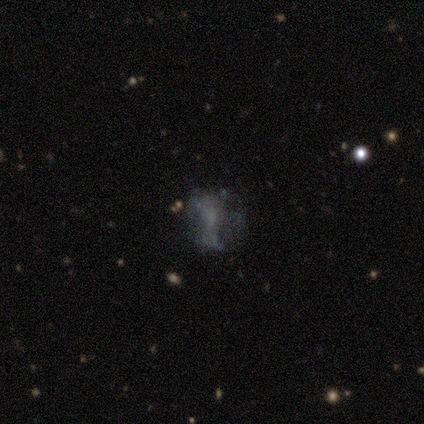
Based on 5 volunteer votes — Smooth or featured? 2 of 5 (40%, tied with star or artifact) said smooth. How rounded? 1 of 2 (50%, tied with in between) said round. Merging? 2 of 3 (67%) said none.